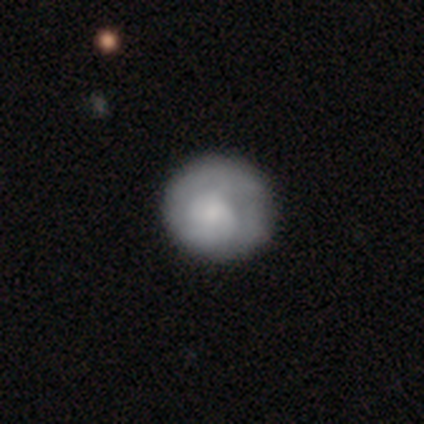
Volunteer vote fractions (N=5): Q: Smooth or featured?
A: featured or disk (80%); runner-up: star or artifact (20%)
Q: Edge-on disk?
A: no (100%)
Q: Bar?
A: no (100%)
Q: Spiral arms?
A: yes (50%); tied with: no (50%)
Q: Spiral winding?
A: tight (100%)
Q: Spiral arm count?
A: 1 (100%)
Q: Bulge size?
A: large (25%); tied with: moderate (25%); small (25%); none (25%)
Q: Merging?
A: none (50%); tied with: minor disturbance (50%)